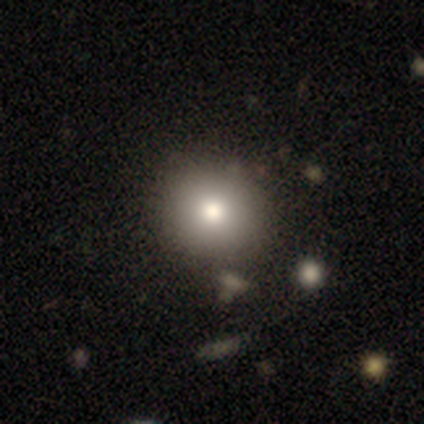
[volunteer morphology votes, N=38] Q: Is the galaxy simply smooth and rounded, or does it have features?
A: smooth — 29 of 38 (76%).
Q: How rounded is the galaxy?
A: round — 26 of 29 (90%).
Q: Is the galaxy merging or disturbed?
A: none — 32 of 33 (97%).